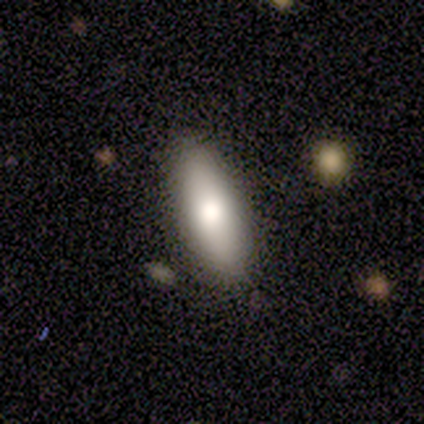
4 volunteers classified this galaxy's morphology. A smooth galaxy with no disk features (75%) that is in between round and cigar-shaped (67%). Merging: none (100%).